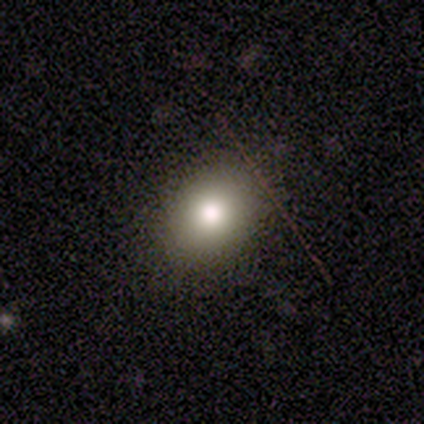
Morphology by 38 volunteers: This is likely a smooth galaxy (71%). How rounded: likely in between (67%). Merging: clearly none (83%).